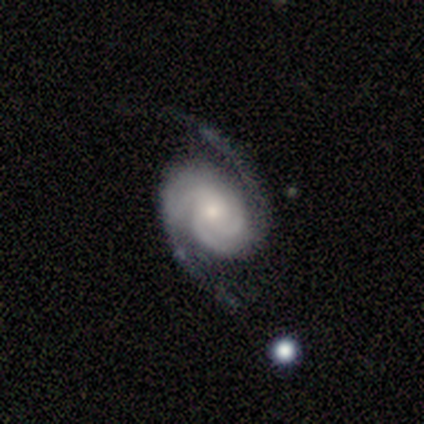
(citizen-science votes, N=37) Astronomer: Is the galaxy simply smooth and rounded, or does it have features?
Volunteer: featured or disk — 89%.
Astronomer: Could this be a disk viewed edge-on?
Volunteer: no — 94%.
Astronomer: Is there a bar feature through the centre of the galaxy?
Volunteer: no — 77%.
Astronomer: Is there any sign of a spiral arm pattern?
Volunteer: yes — 97%.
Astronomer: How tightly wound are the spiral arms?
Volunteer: tight — 53% (runner-up: medium, 47%).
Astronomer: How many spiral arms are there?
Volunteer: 2 — 87%.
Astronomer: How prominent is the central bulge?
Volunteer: small — 61%.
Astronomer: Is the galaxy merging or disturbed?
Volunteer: none — 69%.